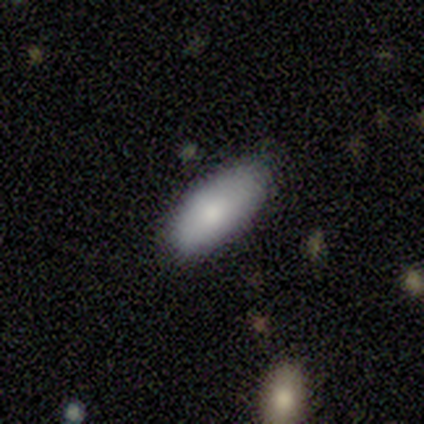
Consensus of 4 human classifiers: smooth 100%, featured or disk 0%, star or artifact 0%. Down the decision tree: how rounded — in between (100%); merging — none (50%, tied with minor disturbance).